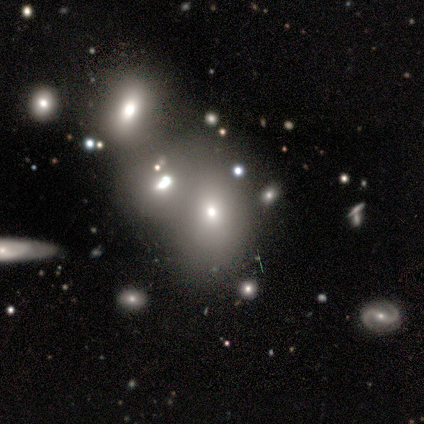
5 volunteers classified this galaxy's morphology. This is marginally a smooth galaxy (40%, tied with featured or disk). How rounded: clearly round (100%). Merging: possibly none (50%, tied with merger).